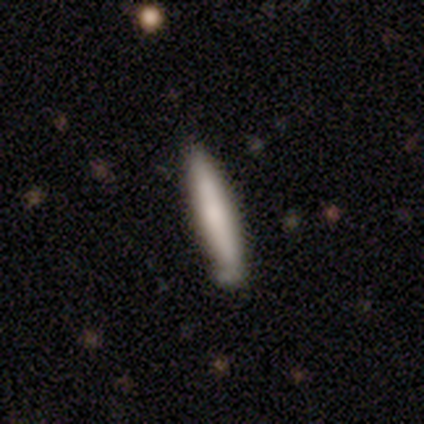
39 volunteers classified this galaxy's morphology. Smooth or featured: smooth — 82% (featured or disk — 18%)
How rounded: cigar-shaped — 97% (in between — 3%)
Merging: none — 74% (minor disturbance — 18%)